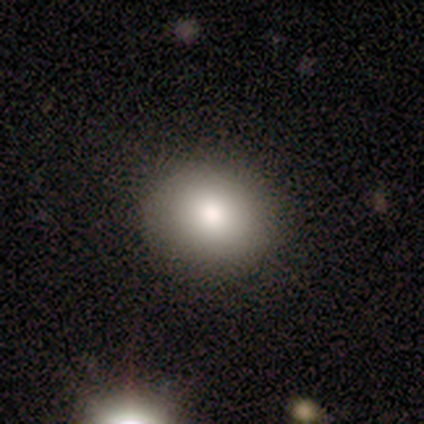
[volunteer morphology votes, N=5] Smooth or featured: smooth — 100%
How rounded: in between — 60% (round — 40%)
Merging: none — 80% (minor disturbance — 20%)